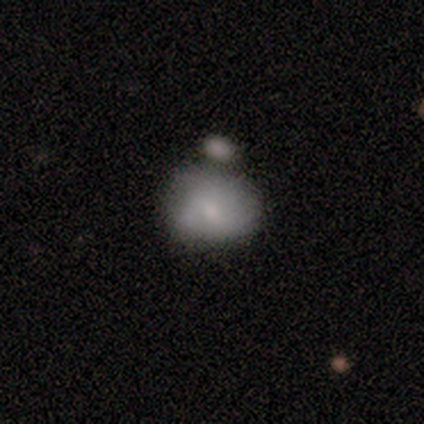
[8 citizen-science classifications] A smooth galaxy with no disk features (50%) that is round (100%). Merging: minor disturbance (43%).